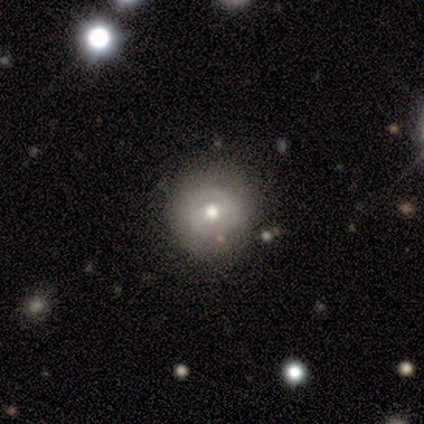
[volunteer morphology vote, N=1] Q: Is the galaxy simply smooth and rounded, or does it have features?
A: smooth — 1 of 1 (100%).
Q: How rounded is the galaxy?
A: round — 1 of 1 (100%).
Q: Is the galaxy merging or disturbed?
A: none — 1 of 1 (100%).